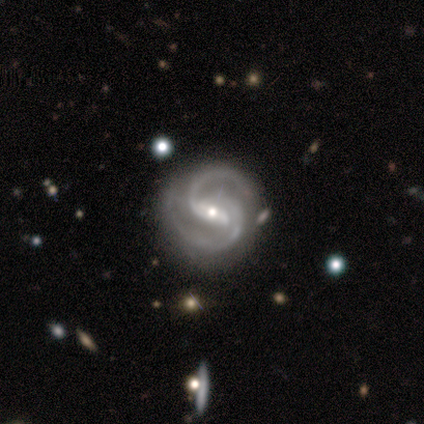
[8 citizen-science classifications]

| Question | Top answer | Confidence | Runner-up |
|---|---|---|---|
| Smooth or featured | featured or disk | 100% | — |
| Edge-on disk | no | 100% | — |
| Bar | strong | 62% | weak (25%) |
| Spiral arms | yes | 100% | — |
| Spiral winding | medium | 75% | tight (25%) |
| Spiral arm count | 2 | 100% | — |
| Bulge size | small | 75% | moderate (25%) |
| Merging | none | 75% | minor disturbance (25%) |